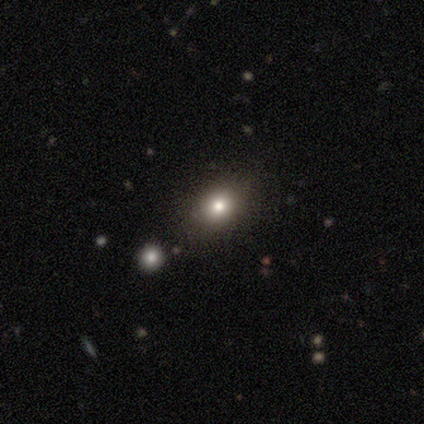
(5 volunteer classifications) Morphology: type=smooth (80%); roundness=round (50%, tied with in between); merging=none (75%).